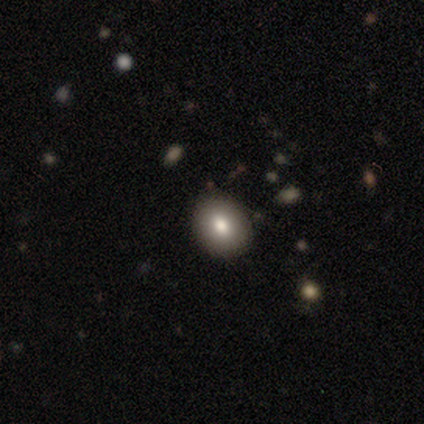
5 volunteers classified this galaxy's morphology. This appears to be a smooth galaxy with no disk features (100%) that is in between round and cigar-shaped (80%). Merging: none (100%).